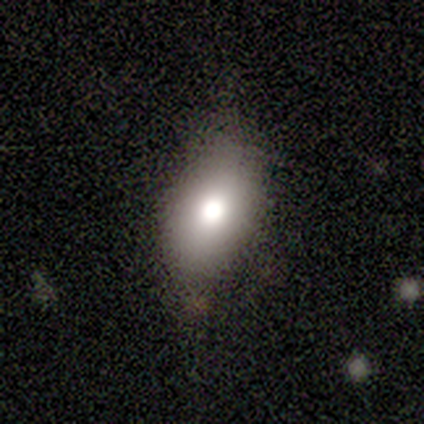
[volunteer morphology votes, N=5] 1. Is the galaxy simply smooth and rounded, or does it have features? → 100% smooth, 0% featured or disk, 0% star or artifact.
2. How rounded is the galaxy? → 80% in between, 20% round, 0% cigar-shaped.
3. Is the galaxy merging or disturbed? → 60% none, 40% minor disturbance, 0% major disturbance, 0% merger.